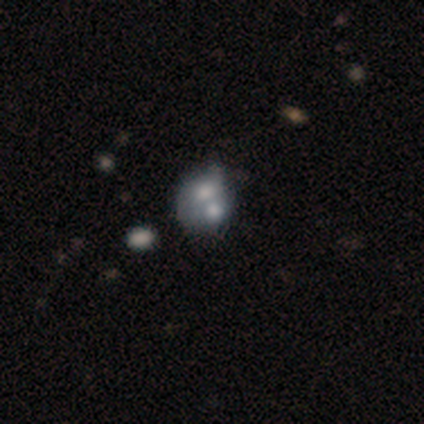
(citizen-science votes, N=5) smooth_or_featured: featured or disk (p=0.80) [alt: smooth p=0.20]
disk_edge_on: yes (p=0.50) [tied with: no p=0.50]
edge_on_bulge: none (p=1.00)
merging: merger (p=0.60) [alt: none p=0.20]